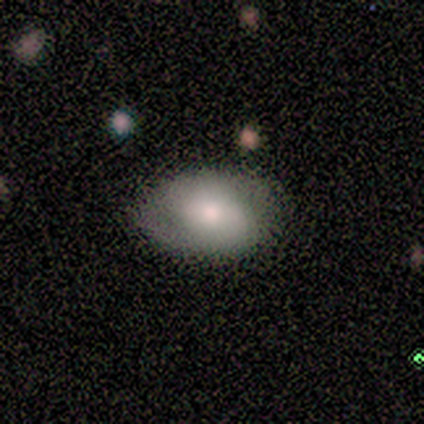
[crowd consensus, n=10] A smooth galaxy with no disk features (50%, tied with featured or disk) that is in between round and cigar-shaped (80%). Merging: none (80%).